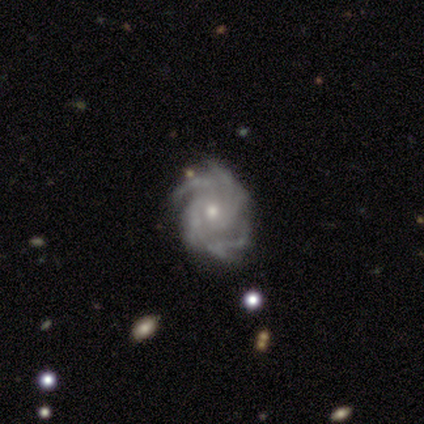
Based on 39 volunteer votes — featured or disk 92%, smooth 5%, star or artifact 3%. Down the decision tree: edge-on disk — no (100%); bar — no (83%); spiral arms — yes (100%); spiral arm count — more than 4 (39%); spiral winding — tight (53%); bulge size — moderate (58%); merging — none (50%).